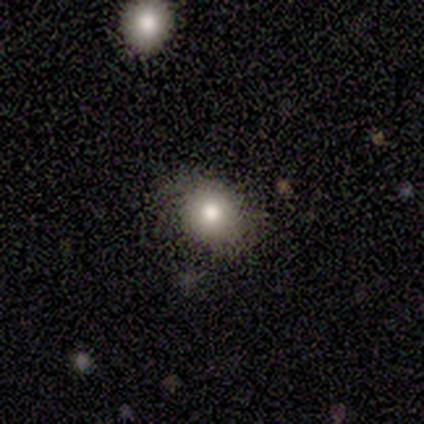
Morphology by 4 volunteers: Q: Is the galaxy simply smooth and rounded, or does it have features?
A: star or artifact — 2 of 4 (50%).